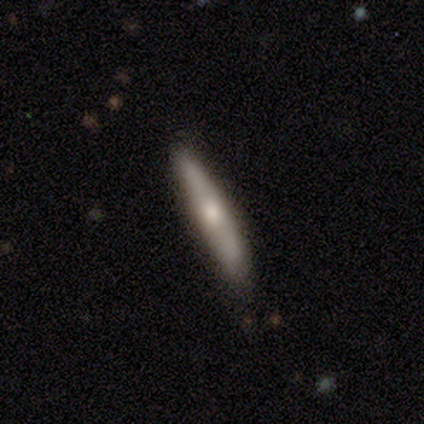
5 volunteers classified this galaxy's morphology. Overall: smooth (60%; featured or disk 40%). How rounded: cigar-shaped (100%). Merging: none (60%; minor disturbance 40%).